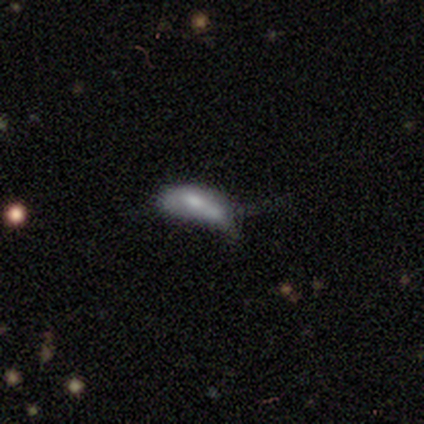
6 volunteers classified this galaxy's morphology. featured or disk 50%, star or artifact 33%, smooth 17%. Down the decision tree: edge-on disk — no (100%); bar — no (100%); spiral arms — no (67%); bulge size — moderate (67%); merging — minor disturbance (50%, tied with major disturbance).